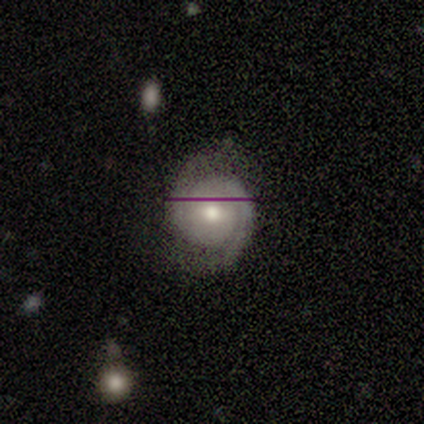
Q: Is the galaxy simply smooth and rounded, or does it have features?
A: featured or disk — 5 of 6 (83%).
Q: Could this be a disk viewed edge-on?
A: no — 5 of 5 (100%).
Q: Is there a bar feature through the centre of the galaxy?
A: no — 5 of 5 (100%).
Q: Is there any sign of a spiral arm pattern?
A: yes — 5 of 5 (100%).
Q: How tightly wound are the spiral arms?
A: tight — 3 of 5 (60%).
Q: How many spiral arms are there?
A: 2 — 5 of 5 (100%).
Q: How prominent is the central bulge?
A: moderate — 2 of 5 (40%, tied with small).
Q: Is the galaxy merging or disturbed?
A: none — 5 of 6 (83%).